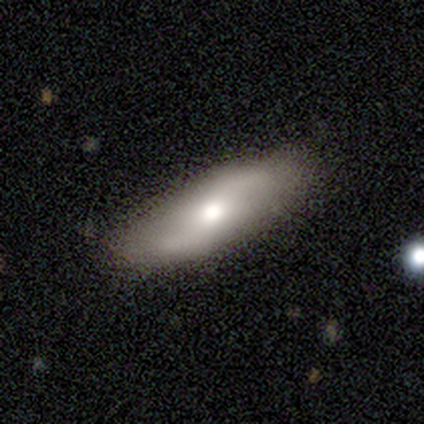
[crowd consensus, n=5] featured or disk 80%, smooth 20%, star or artifact 0%. Down the decision tree: edge-on disk — no (100%); bar — no (75%); spiral arms — yes (75%); spiral arm count — 2 (100%); spiral winding — loose (67%); bulge size — moderate (100%); merging — none (100%).